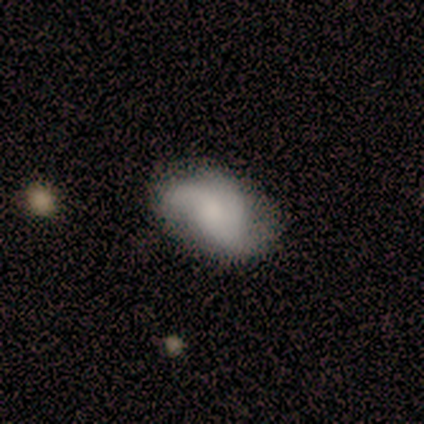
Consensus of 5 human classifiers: Volunteers were most divided on "merging" (2-way tie): none: 40%, major disturbance: 40%, minor disturbance: 20%, merger: 0%. More confident: edge-on disk — no (100%); spiral arms — yes (100%); smooth or featured — featured or disk (80%); bar — no (75%); spiral winding — medium (75%); spiral arm count — 2 (50%); bulge size — none (50%).